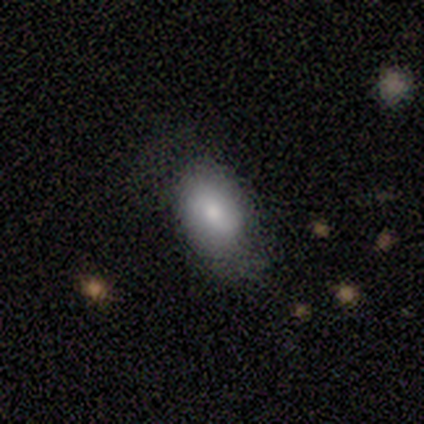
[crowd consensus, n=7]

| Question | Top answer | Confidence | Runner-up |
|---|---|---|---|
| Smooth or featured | smooth | 86% | featured or disk (14%) |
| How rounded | in between | 100% | — |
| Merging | none | 57% | minor disturbance (29%) |